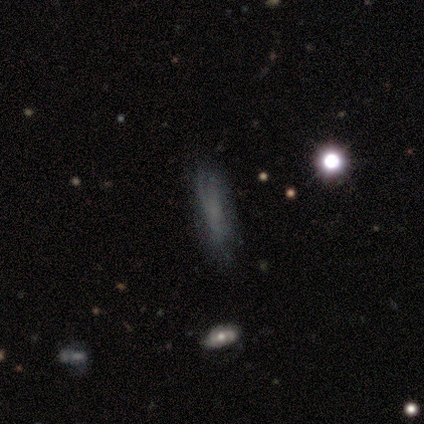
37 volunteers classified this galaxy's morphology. A smooth galaxy with no disk features (46%) that is cigar-shaped (71%). Merging: none (73%).